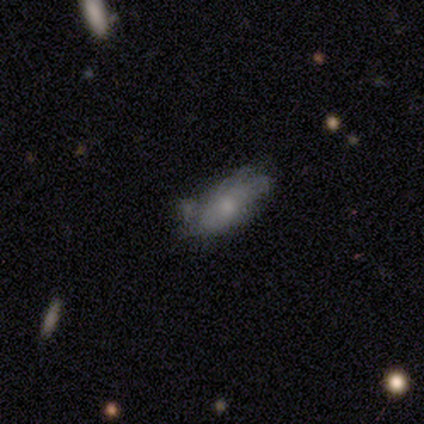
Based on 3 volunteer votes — featured or disk 67%, smooth 33%, star or artifact 0%. Down the decision tree: edge-on disk — no (100%); bar — weak (100%); spiral arms — yes (50%, tied with no); spiral arm count — more than 4 (100%); spiral winding — medium (100%); bulge size — small (100%); merging — none (33%, tied with minor disturbance and merger).